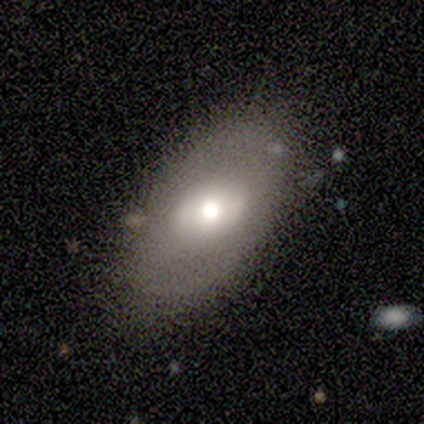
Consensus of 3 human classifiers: Smooth or featured? 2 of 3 (67%) said smooth. How rounded? 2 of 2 (100%) said in between. Merging? 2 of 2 (100%) said none.